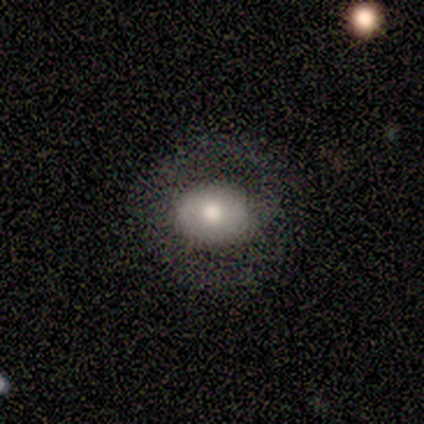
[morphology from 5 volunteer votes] Smooth or featured? 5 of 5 (100%) said smooth. How rounded? 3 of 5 (60%) said round. Merging? 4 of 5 (80%) said none.